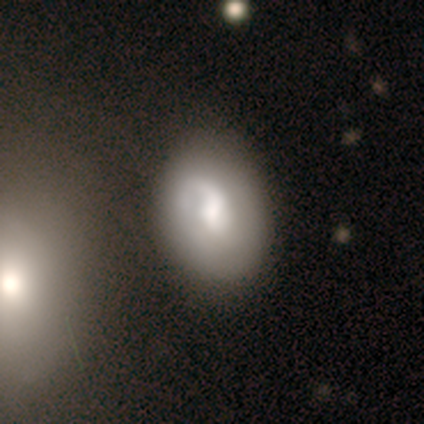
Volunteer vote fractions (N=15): smooth 47% (tied), featured or disk 47% (tied), star or artifact 7%. Down the decision tree: how rounded — in between (86%); merging — minor disturbance (43%).